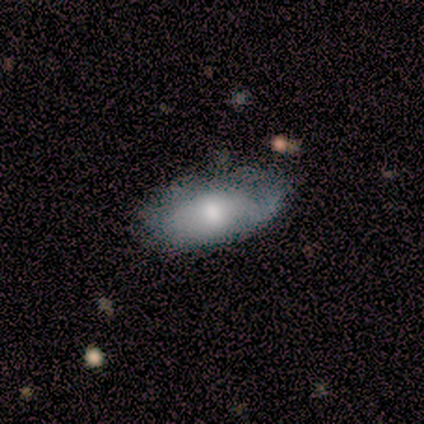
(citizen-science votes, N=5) A smooth galaxy with no disk features (60%) that is in between round and cigar-shaped (100%).

Vote fractions:
- Smooth or featured? smooth: 60% / featured or disk: 40% / star or artifact: 0%
- How rounded? in between: 100% / round: 0% / cigar-shaped: 0%
- Merging? minor disturbance: 60% / none: 20% / major disturbance: 20% / merger: 0%